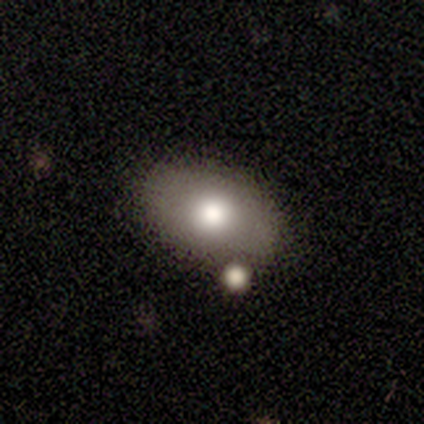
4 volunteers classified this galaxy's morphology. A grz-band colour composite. It shows a smooth galaxy with no disk features (100%) that is in between round and cigar-shaped (100%). Merging: merger (50%).